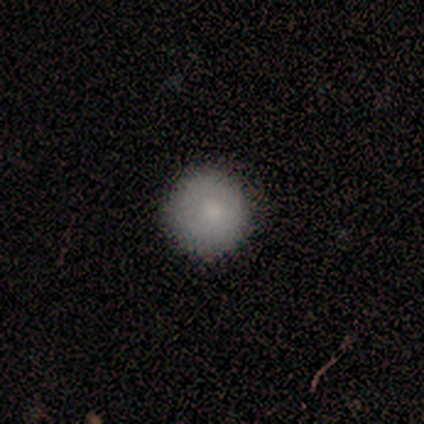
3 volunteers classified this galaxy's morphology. smooth_or_featured: smooth (p=0.33) [tied with: featured or disk p=0.33, star or artifact p=0.33]
how_rounded: round (p=1.00)
merging: none (p=1.00)